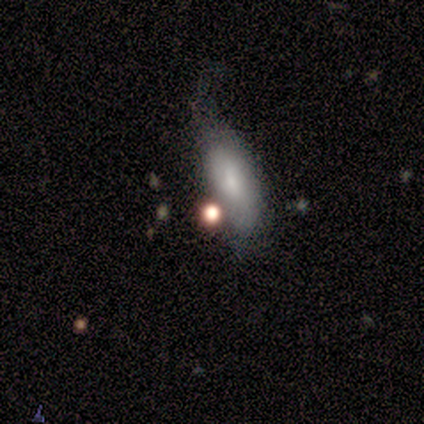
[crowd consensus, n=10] Q: Smooth or featured?
A: smooth (90%); runner-up: star or artifact (10%)
Q: How rounded?
A: in between (67%); runner-up: cigar-shaped (22%)
Q: Merging?
A: minor disturbance (67%); runner-up: major disturbance (22%)